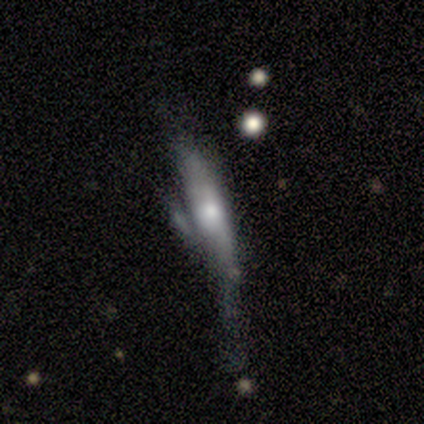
A featured or disk galaxy (55%) viewed edge-on (86%) with a rounded central bulge (74%).

Vote fractions:
- Smooth or featured? featured or disk: 55% / smooth: 38% / star or artifact: 8%
- Edge-on disk? yes: 86% / no: 14%
- Edge-on bulge? rounded: 74% / none: 16% / boxy: 11%
- Merging? major disturbance: 32% / none: 30% / minor disturbance: 22% / merger: 16%